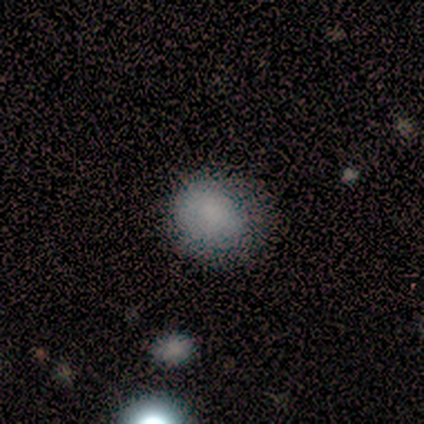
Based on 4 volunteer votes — Morphology: type=smooth (100%); roundness=round (75%); merging=none (75%).